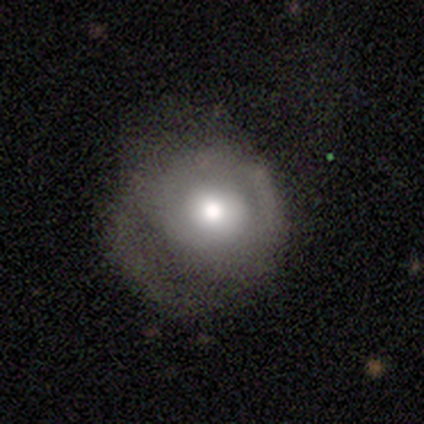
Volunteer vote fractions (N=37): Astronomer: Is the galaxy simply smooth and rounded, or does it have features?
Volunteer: smooth — 57% (runner-up: featured or disk, 38%).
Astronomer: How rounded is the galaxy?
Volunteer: round — 86%.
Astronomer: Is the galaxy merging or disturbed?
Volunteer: none — 51% (runner-up: minor disturbance, 29%).